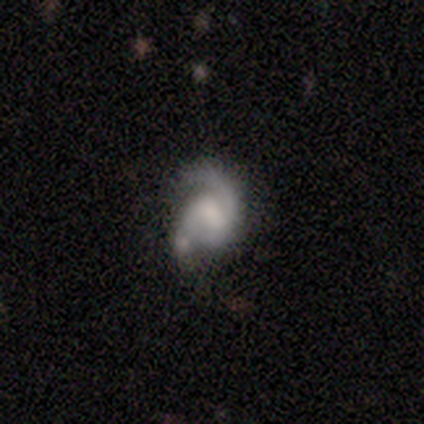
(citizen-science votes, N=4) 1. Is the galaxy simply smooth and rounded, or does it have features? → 100% featured or disk, 0% smooth, 0% star or artifact.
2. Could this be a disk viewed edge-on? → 100% no, 0% yes.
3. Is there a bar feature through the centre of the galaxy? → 50% weak, 25% strong, 25% no.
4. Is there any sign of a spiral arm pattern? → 75% yes, 25% no.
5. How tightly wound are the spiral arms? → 67% medium, 33% tight, 0% loose.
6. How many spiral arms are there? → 100% 2, 0% 1, 0% 3, 0% 4, 0% more than 4, 0% can't tell.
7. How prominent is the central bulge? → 50% large, 25% dominant, 25% small, 0% moderate, 0% none.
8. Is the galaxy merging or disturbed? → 50% none (tied), 50% minor disturbance (tied), 0% major disturbance, 0% merger.